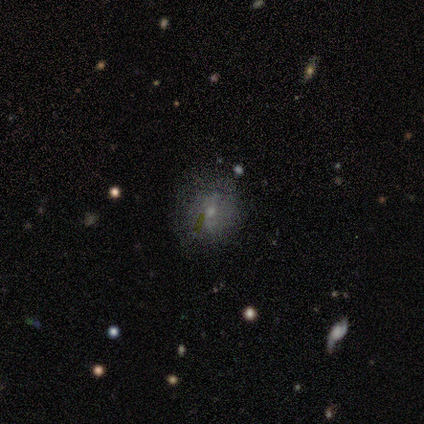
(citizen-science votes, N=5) Morphology: type=featured or disk (60%); edge-on=no (100%); bar=weak (67%); spiral arms=no (67%); bulge=moderate (67%); merging=none (80%).